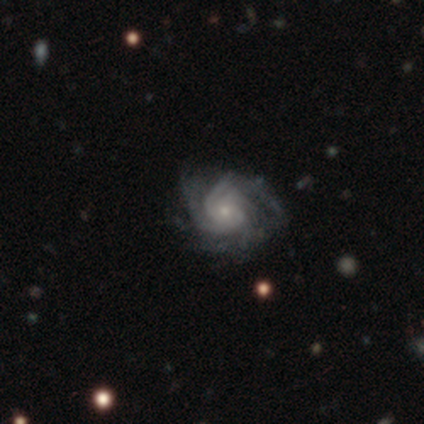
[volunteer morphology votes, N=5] Smooth or featured?
  - featured or disk: 80% *
  - smooth: 20%
  - star or artifact: 0%
Edge-on disk?
  - no: 100% *
  - yes: 0%
Bar?
  - no: 75% *
  - weak: 25%
  - strong: 0%
Spiral arms?
  - yes: 100% *
  - no: 0%
Spiral winding?
  - tight: 100% *
  - medium: 0%
  - loose: 0%
Spiral arm count?
  - 4: 50% *
  - 3: 25%
  - more than 4: 25%
  - 1: 0%
  - 2: 0%
  - can't tell: 0%
Bulge size?
  - moderate: 50% * (tied)
  - small: 50% * (tied)
  - dominant: 0%
  - large: 0%
  - none: 0%
Merging?
  - none: 80% *
  - major disturbance: 20%
  - minor disturbance: 0%
  - merger: 0%